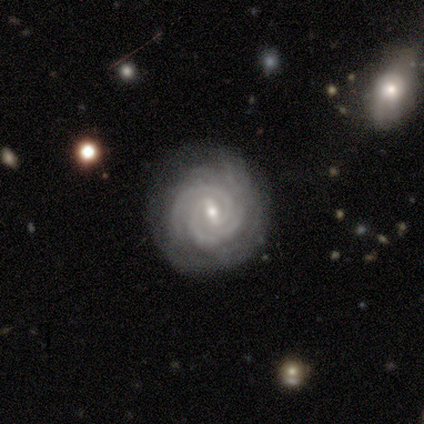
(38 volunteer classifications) A featured or disk galaxy (79%) with a weak bar (55%), 2 (48%) tight (83%) spiral arms (100%) and a small central bulge (86%). Merging: none (91%).